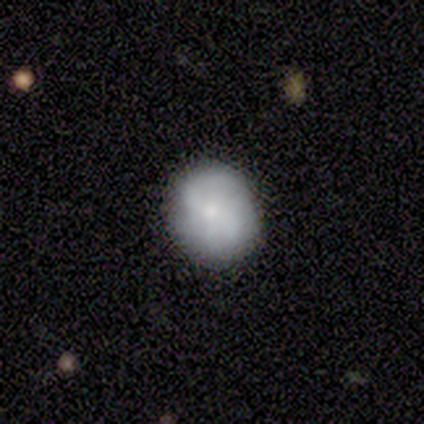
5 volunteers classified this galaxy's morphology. Smooth or featured: featured or disk — 60% (smooth — 40%)
Edge-on disk: no — 100%
Bar: no — 67% (strong — 33%)
Spiral arms: yes — 67% (no — 33%)
Spiral winding: tight — 100%
Spiral arm count: can't tell — 100%
Bulge size: large — 33% (tied with moderate — 33%; small — 33%)
Merging: none — 80% (minor disturbance — 20%)